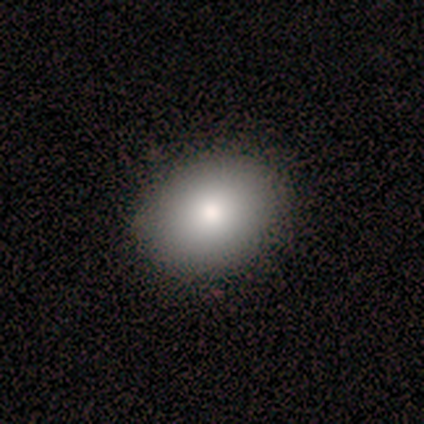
Smooth or featured? 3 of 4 (75%) said smooth. How rounded? 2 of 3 (67%) said round. Merging? 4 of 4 (100%) said none.